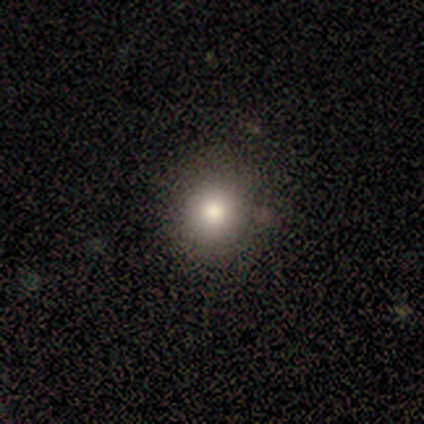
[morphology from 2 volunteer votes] Smooth or featured?
  - smooth: 100% *
  - featured or disk: 0%
  - star or artifact: 0%
How rounded?
  - round: 50% * (tied)
  - in between: 50% * (tied)
  - cigar-shaped: 0%
Merging?
  - none: 100% *
  - minor disturbance: 0%
  - major disturbance: 0%
  - merger: 0%